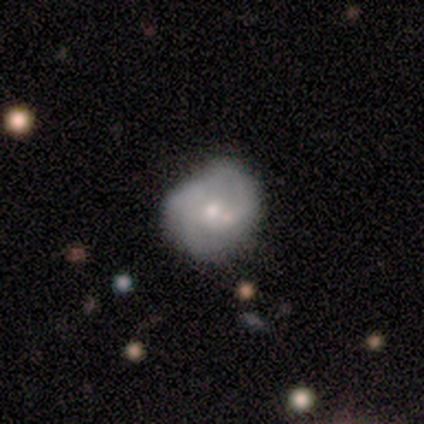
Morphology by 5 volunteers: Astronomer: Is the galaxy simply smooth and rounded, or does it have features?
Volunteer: featured or disk — 60% (runner-up: star or artifact, 40%).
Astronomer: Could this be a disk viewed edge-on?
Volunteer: no — 100%.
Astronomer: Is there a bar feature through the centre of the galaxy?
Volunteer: no — 67%.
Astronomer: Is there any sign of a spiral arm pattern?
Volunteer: no — 100%.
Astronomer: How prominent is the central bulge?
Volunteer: small — 67%.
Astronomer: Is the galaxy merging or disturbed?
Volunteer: major disturbance — 67%.